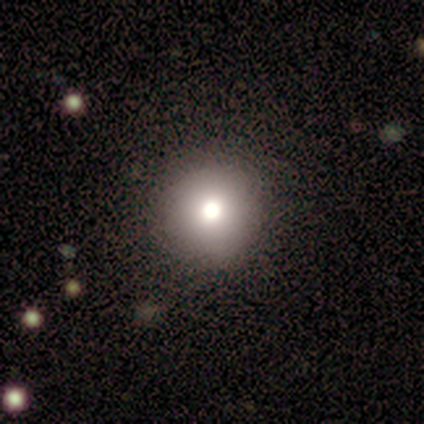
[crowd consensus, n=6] smooth 67%, star or artifact 33%, featured or disk 0%. Down the decision tree: how rounded — round (100%); merging — none (100%).